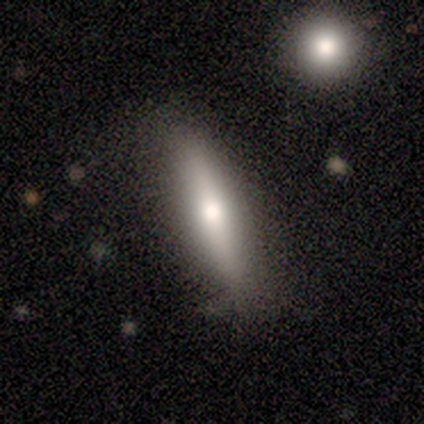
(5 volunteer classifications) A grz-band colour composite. It shows a smooth galaxy with no disk features (40%, tied with featured or disk) that is in between round and cigar-shaped (50%, tied with cigar-shaped). Merging: none (75%).